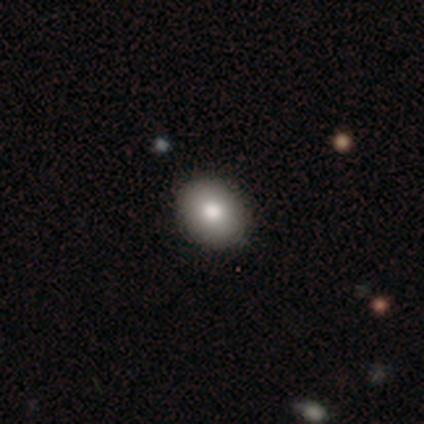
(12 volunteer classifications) Q: Smooth or featured?
A: smooth (83%); runner-up: featured or disk (8%)
Q: How rounded?
A: in between (60%); runner-up: round (40%)
Q: Merging?
A: none (100%)